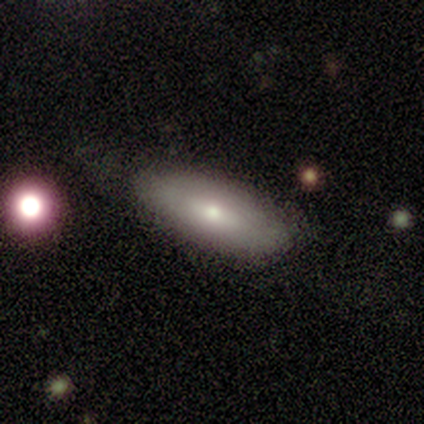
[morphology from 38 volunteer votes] A smooth galaxy with no disk features (79%) that is in between round and cigar-shaped (83%). Merging: none (82%).